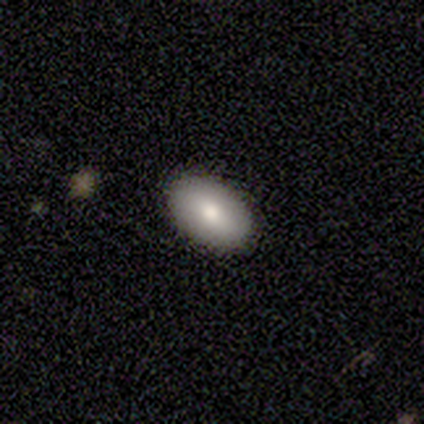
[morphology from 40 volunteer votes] A smooth galaxy with no disk features (80%) that is in between round and cigar-shaped (97%).

Vote fractions:
- Smooth or featured? smooth: 80% / featured or disk: 15% / star or artifact: 5%
- How rounded? in between: 97% / cigar-shaped: 3% / round: 0%
- Merging? none: 89% / minor disturbance: 5% / major disturbance: 5% / merger: 0%